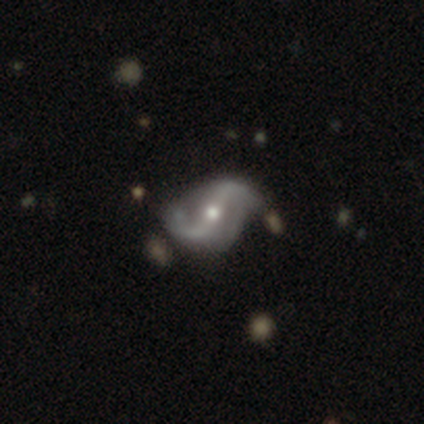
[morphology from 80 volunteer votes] Volunteers were most divided on "bar": strong: 37%, no: 34%, weak: 29%. Remaining: edge-on disk — no (100%); spiral arms — yes (99%); spiral arm count — 2 (97%); smooth or featured — featured or disk (95%); spiral winding — loose (83%); bulge size — moderate (58%); merging — none (40%).